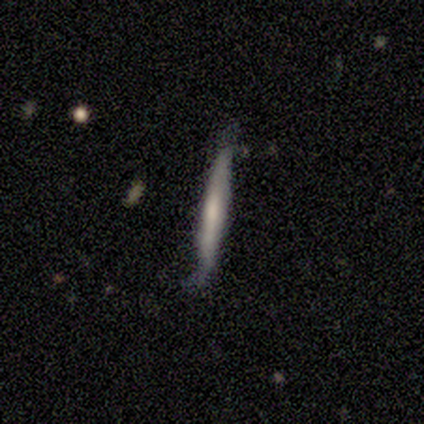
Overall: smooth (50%, tied with featured or disk). How rounded: in between (50%, tied with cigar-shaped). Merging: none (50%, tied with minor disturbance).